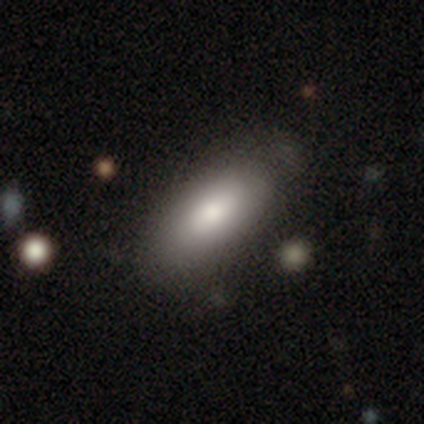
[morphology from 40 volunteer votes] This is clearly a smooth galaxy (85%). How rounded: clearly in between (97%). Merging: possibly none (55%).